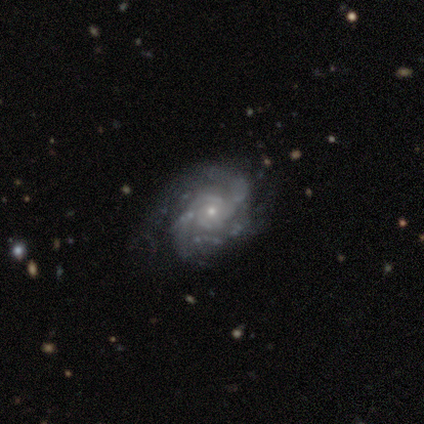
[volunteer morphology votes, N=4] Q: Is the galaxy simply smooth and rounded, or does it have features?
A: featured or disk — 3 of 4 (75%).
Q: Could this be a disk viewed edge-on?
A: no — 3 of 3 (100%).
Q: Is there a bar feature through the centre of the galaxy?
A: no — 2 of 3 (67%).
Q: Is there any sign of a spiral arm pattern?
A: yes — 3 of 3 (100%).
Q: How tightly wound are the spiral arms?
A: medium — 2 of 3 (67%).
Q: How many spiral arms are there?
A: can't tell — 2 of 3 (67%).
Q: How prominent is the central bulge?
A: small — 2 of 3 (67%).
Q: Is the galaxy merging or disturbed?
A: none — 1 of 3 (33%, tied with minor disturbance and major disturbance).